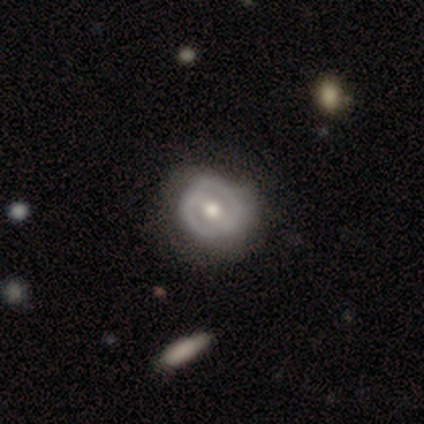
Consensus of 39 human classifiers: Volunteers were most divided on "bar" (2-way tie): weak: 36%, no: 36%, strong: 28%. More confident: edge-on disk — no (96%); bulge size — moderate (76%); smooth or featured — featured or disk (67%); spiral arms — no (64%); merging — none (61%).